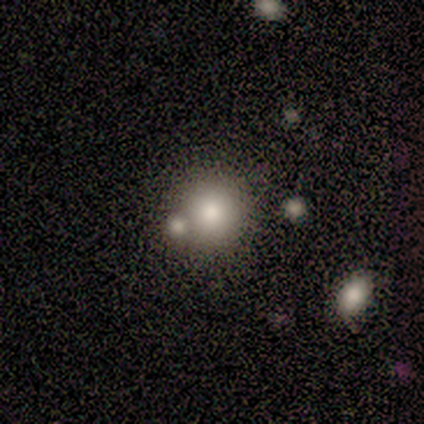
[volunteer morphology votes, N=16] smooth-or-featured: smooth: 69% | featured or disk: 31% | star or artifact: 0%
  how-rounded: round: 91% | in between: 9% | cigar-shaped: 0%
  merging: none: 50% | merger: 31% | minor disturbance: 12% | major disturbance: 6%